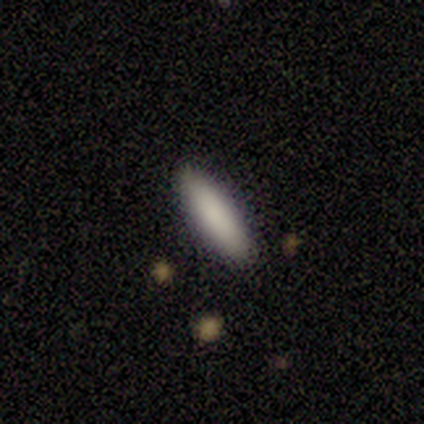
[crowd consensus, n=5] This appears to be a smooth galaxy with no disk features (100%) that is cigar-shaped (60%). Merging: none (100%).